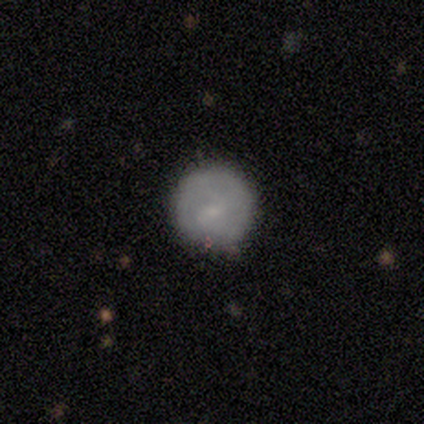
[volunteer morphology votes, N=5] A smooth galaxy with no disk features (60%) that is round (100%). Merging: none (100%).